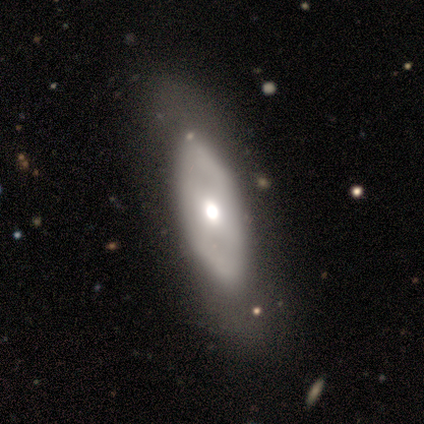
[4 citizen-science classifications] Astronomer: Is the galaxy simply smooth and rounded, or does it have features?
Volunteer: featured or disk — 75%.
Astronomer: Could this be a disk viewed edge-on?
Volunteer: no — 100%.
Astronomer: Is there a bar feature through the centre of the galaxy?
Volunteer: no — 67%.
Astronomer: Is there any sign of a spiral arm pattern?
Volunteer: no — 67%.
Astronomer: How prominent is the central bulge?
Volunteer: moderate — 67%.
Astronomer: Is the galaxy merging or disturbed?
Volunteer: none — 75%.